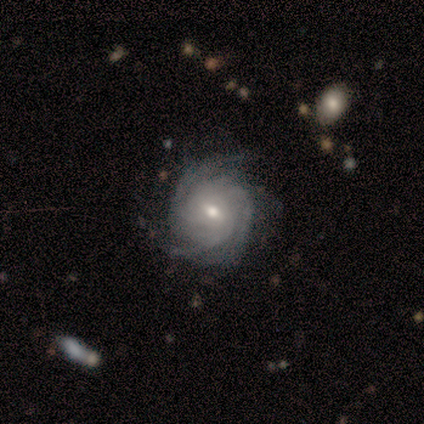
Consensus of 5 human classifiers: Volunteers were most divided on "spiral arm count": 3: 60%, more than 4: 40%, 1: 0%, 2: 0%, 4: 0%, can't tell: 0%. More confident: smooth or featured — featured or disk (100%); edge-on disk — no (100%); spiral arms — yes (100%); merging — none (100%); bar — weak (80%); spiral winding — tight (80%); bulge size — small (60%).